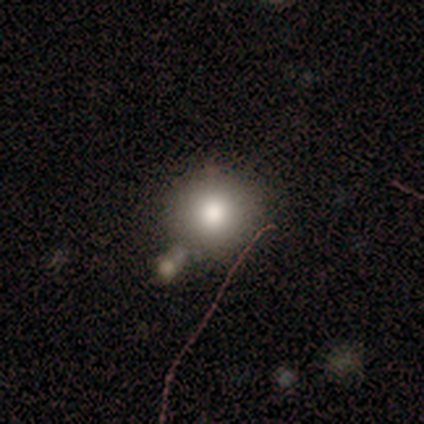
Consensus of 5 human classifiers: This appears to be a smooth galaxy with no disk features (80%) that is round (100%). Merging: none (100%).